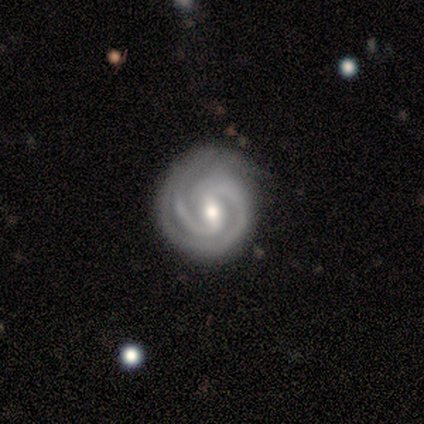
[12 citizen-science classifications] Overall: featured or disk (83%). Edge-on disk: no (100%). Bar: weak (50%; strong 40%). Spiral arms: yes (90%). Spiral arm count: 2 (89%). Spiral winding: tight (67%). Bulge size: moderate (80%). Merging: none (75%).